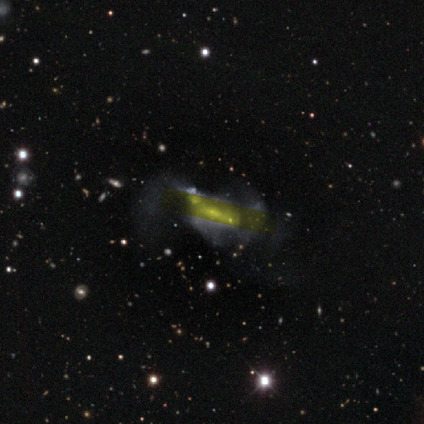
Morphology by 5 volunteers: Smooth or featured? featured or disk (60%)
Edge-on disk? yes (67%)
Edge-on bulge? none (50%, tied with rounded)
Merging? major disturbance (60%)